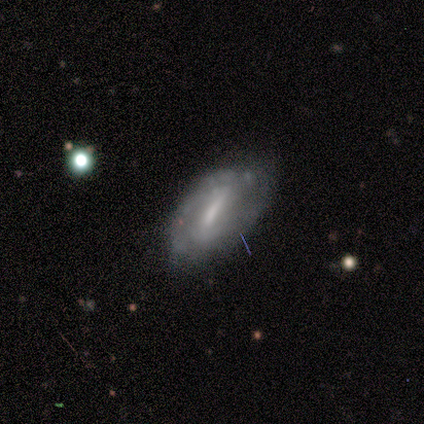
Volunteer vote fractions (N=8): Smooth or featured? 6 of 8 (75%) said featured or disk. Edge-on disk? 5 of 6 (83%) said no. Bar? 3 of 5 (60%) said strong. Spiral arms? 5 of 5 (100%) said yes. Spiral winding? 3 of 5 (60%) said tight. Spiral arm count? 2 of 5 (40%, tied with can't tell) said 2. Bulge size? 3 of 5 (60%) said none. Merging? 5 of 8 (62%) said none.